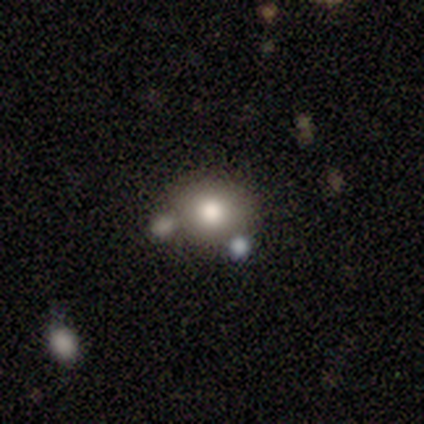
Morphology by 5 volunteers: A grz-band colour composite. It shows a smooth galaxy with no disk features (100%) that is round (100%). Merging: none (80%).